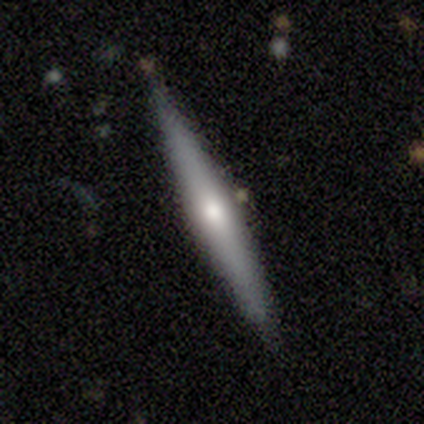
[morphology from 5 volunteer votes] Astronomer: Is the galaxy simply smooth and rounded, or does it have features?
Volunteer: featured or disk — 60% (runner-up: smooth, 40%).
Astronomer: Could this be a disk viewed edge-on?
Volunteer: yes — 100%.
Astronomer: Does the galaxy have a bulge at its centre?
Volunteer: rounded — 67%.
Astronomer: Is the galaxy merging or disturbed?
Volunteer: none — 60%.